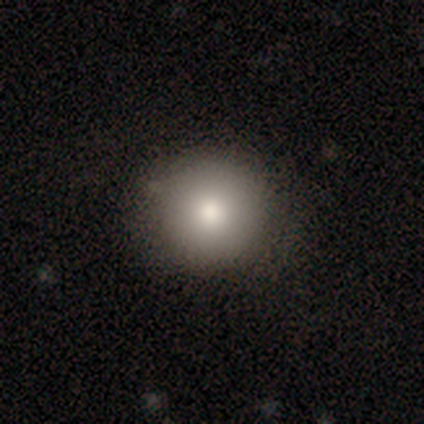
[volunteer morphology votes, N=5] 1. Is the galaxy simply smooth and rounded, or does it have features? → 80% smooth, 20% featured or disk, 0% star or artifact.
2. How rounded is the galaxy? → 100% round, 0% in between, 0% cigar-shaped.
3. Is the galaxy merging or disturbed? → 80% none, 20% merger, 0% minor disturbance, 0% major disturbance.